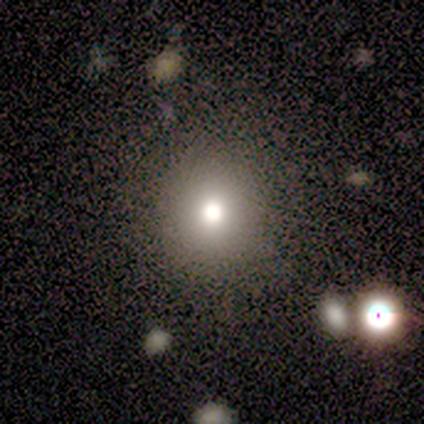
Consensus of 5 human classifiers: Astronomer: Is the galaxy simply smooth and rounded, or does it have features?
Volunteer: smooth — 60%.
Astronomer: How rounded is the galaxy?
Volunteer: in between — 67%.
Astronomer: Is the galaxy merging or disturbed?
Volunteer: minor disturbance — 50%.